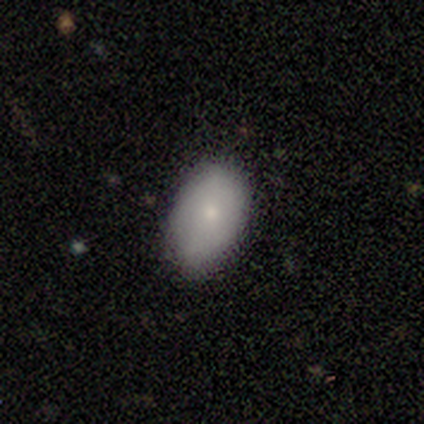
Overall: smooth (60%; featured or disk 40%). How rounded: in between (100%). Merging: none (80%).